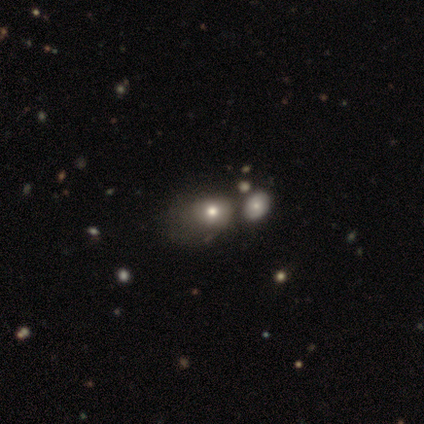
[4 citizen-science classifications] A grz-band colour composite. It shows a smooth galaxy with no disk features (100%) that is in between round and cigar-shaped (75%). Merging: none (50%, tied with major disturbance).